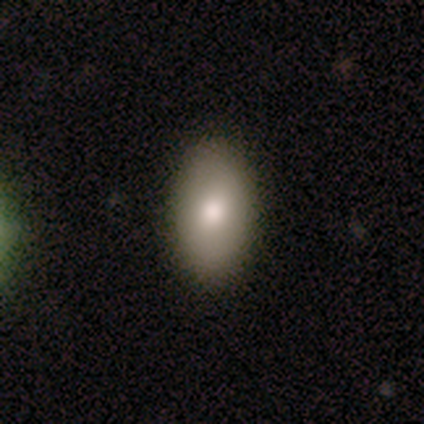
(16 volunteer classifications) This is clearly a smooth galaxy (81%). How rounded: clearly in between (92%). Merging: clearly none (94%).